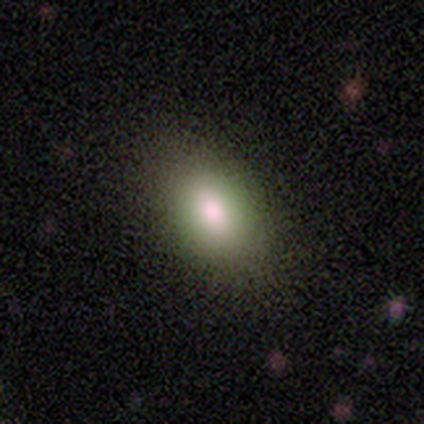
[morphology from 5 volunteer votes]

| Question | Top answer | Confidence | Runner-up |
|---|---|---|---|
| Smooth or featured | smooth | 100% | — |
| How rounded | in between | 80% | round (20%) |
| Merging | none | 100% | — |